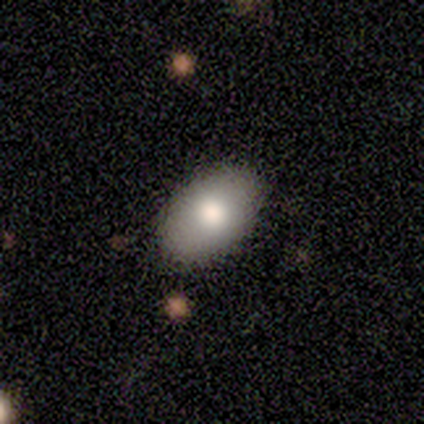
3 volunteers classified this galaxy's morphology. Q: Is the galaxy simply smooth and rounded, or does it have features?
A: smooth — 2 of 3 (67%).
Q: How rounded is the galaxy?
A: in between — 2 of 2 (100%).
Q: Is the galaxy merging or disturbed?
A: none — 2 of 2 (100%).